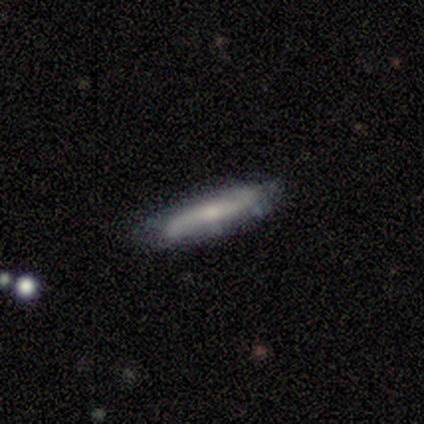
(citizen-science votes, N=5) Smooth or featured? 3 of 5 (60%) said featured or disk. Edge-on disk? 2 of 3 (67%) said no. Bar? 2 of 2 (100%) said strong. Spiral arms? 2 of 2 (100%) said yes. Spiral winding? 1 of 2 (50%, tied with loose) said tight. Spiral arm count? 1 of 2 (50%, tied with 2) said 1. Bulge size? 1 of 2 (50%, tied with small) said large. Merging? 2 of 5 (40%) said minor disturbance.